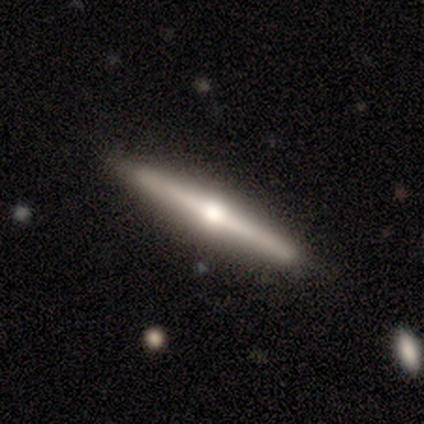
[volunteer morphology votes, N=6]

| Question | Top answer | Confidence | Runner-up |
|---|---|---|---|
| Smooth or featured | featured or disk | 67% | smooth (33%) |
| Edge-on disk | yes | 100% | — |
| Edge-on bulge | rounded | 100% | — |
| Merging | none | 100% | — |